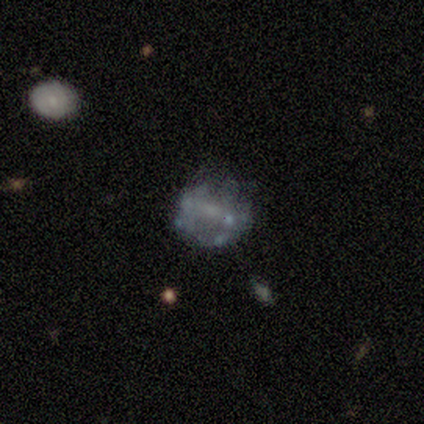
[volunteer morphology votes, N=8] Q: Smooth or featured?
A: featured or disk (75%); runner-up: smooth (12%)
Q: Edge-on disk?
A: no (100%)
Q: Bar?
A: weak (50%); runner-up: no (33%)
Q: Spiral arms?
A: no (83%); runner-up: yes (17%)
Q: Bulge size?
A: none (50%); runner-up: small (33%)
Q: Merging?
A: none (71%); runner-up: major disturbance (29%)